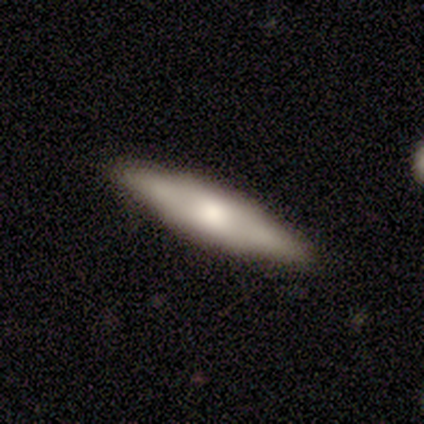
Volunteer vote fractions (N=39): Volunteers were most divided on "smooth or featured": featured or disk: 54%, smooth: 38%, star or artifact: 8%. More confident: edge-on disk — yes (76%); merging — none (64%); edge-on bulge — rounded (56%).